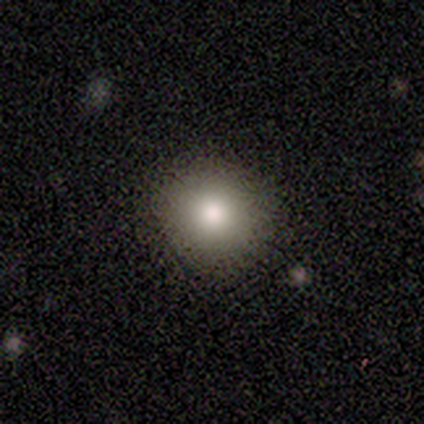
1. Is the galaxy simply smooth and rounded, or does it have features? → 100% smooth, 0% featured or disk, 0% star or artifact.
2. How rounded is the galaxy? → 100% round, 0% in between, 0% cigar-shaped.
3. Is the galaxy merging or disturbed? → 100% none, 0% minor disturbance, 0% major disturbance, 0% merger.